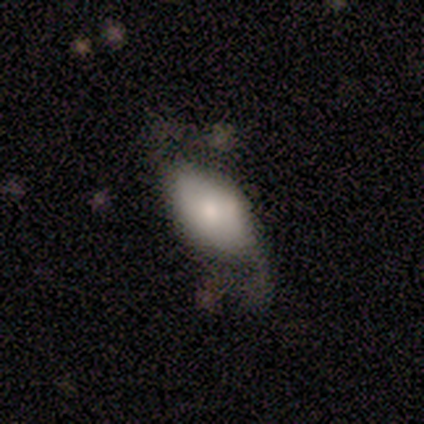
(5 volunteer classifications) Smooth or featured? smooth (60%)
How rounded? in between (100%)
Merging? minor disturbance (40%, tied with major disturbance)